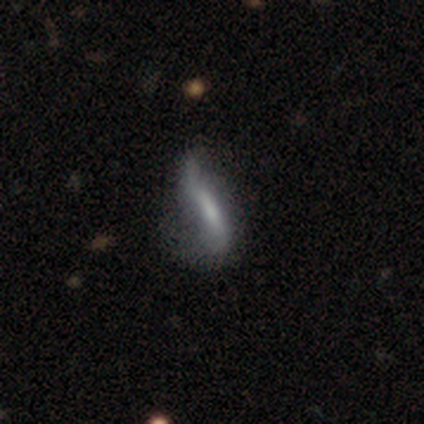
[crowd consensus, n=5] featured or disk 80%, star or artifact 20%, smooth 0%. Down the decision tree: edge-on disk — no (75%); bar — weak (67%); spiral arms — yes (67%); spiral arm count — 2 (100%); spiral winding — loose (100%); bulge size — none (100%); merging — minor disturbance (50%, tied with major disturbance).